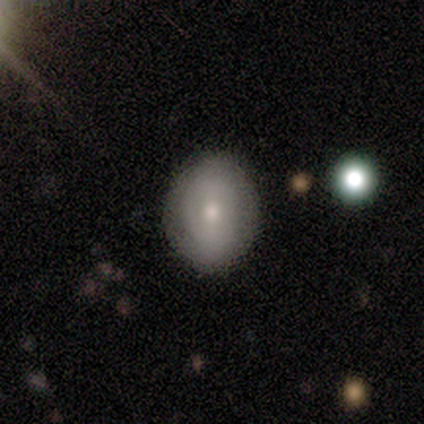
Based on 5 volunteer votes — Volunteers were most divided on "smooth or featured": smooth: 60%, featured or disk: 40%, star or artifact: 0%. More confident: how rounded — in between (100%); merging — none (100%).